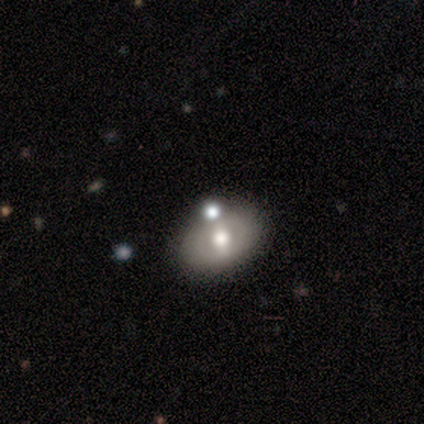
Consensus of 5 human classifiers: This appears to be a smooth galaxy with no disk features (80%) that is in between round and cigar-shaped (100%). Merging: none (100%).